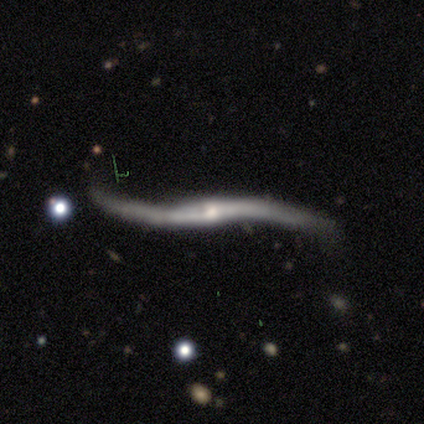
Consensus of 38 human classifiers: Smooth or featured: featured or disk — 89% (smooth — 5%)
Edge-on disk: no — 56% (yes — 44%)
Bar: strong — 47% (no — 42%)
Spiral arms: yes — 89% (no — 11%)
Spiral winding: loose — 100%
Spiral arm count: 2 — 94% (1 — 6%)
Bulge size: small — 53% (moderate — 26%)
Merging: none — 53% (major disturbance — 25%)